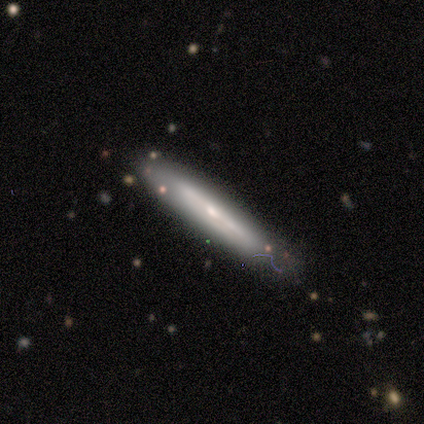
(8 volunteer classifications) A smooth galaxy with no disk features (62%) that is cigar-shaped (80%). Merging: none (57%).